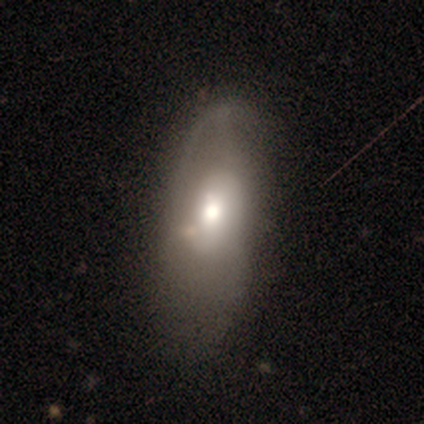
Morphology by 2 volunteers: Smooth or featured? 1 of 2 (50%, tied with star or artifact) said featured or disk. Edge-on disk? 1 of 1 (100%) said no. Bar? 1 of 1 (100%) said no. Spiral arms? 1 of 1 (100%) said no. Bulge size? 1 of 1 (100%) said large. Merging? 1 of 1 (100%) said minor disturbance.